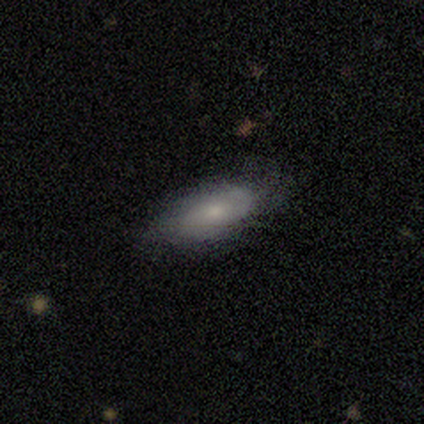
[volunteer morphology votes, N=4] A smooth galaxy with no disk features (75%) that is in between round and cigar-shaped (100%).

Vote fractions:
- Smooth or featured? smooth: 75% / featured or disk: 25% / star or artifact: 0%
- How rounded? in between: 100% / round: 0% / cigar-shaped: 0%
- Merging? none: 75% / minor disturbance: 25% / major disturbance: 0% / merger: 0%